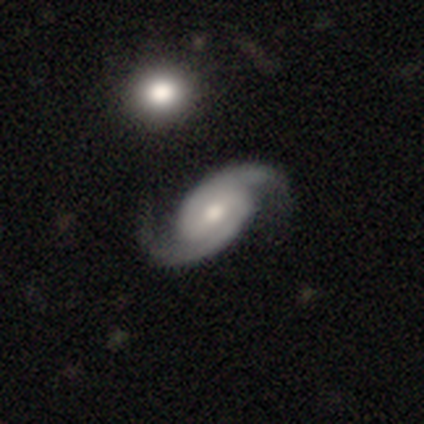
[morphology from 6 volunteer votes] type=featured or disk (100%); edge-on=no (100%); bar=strong (50%); spiral arms=yes (100%); winding=medium (67%); arm count=2 (100%); bulge=moderate (83%); merging=none (83%).